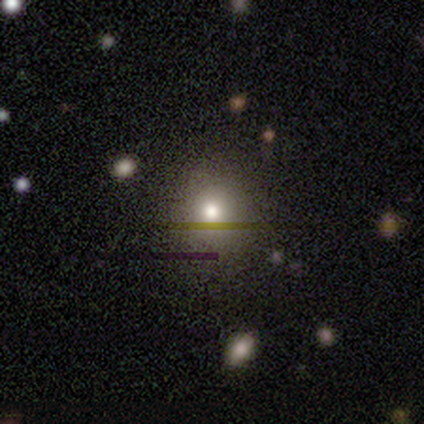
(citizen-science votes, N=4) A smooth galaxy with no disk features (75%) that is round (67%). Merging: none (100%).